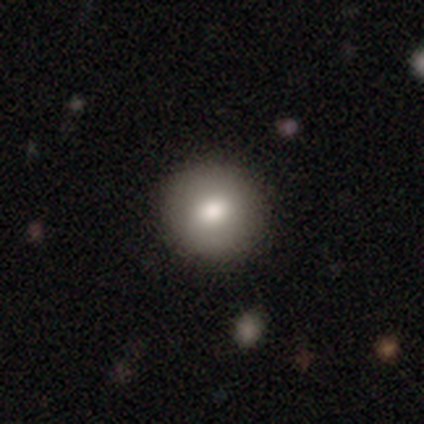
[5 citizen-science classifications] Smooth or featured? featured or disk (60%)
Edge-on disk? no (100%)
Bar? no (67%)
Spiral arms? no (100%)
Bulge size? dominant (33%, tied with large and moderate)
Merging? none (80%)